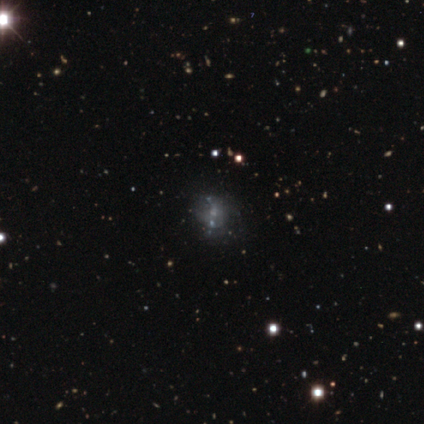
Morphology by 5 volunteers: Smooth or featured? 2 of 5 (40%, tied with featured or disk) said smooth. How rounded? 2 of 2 (100%) said in between. Merging? 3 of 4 (75%) said none.